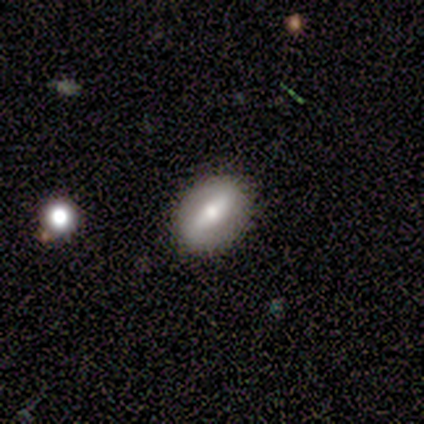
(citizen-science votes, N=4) Smooth or featured: featured or disk — 50% (tied with star or artifact — 50%)
Edge-on disk: no — 100%
Bar: strong — 100%
Spiral arms: no — 100%
Bulge size: large — 50% (tied with moderate — 50%)
Merging: none — 50% (tied with minor disturbance — 50%)